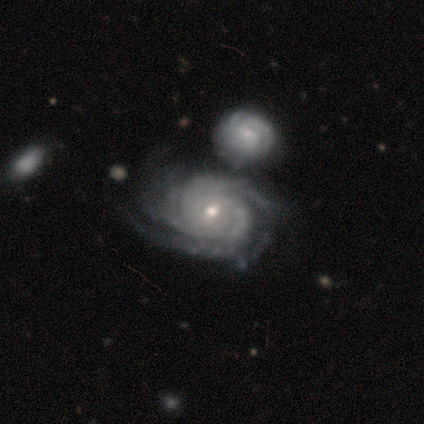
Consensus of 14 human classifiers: smooth_or_featured: featured or disk (p=1.00)
disk_edge_on: no (p=1.00)
bar: weak (p=0.43) [tied with: no p=0.43]
has_spiral_arms: yes (p=1.00)
spiral_winding: tight (p=0.86) [alt: medium p=0.07]
spiral_arm_count: 4 (p=0.29) [alt: 3 p=0.21]
bulge_size: moderate (p=0.50) [tied with: small p=0.50]
merging: none (p=0.43) [alt: merger p=0.29]